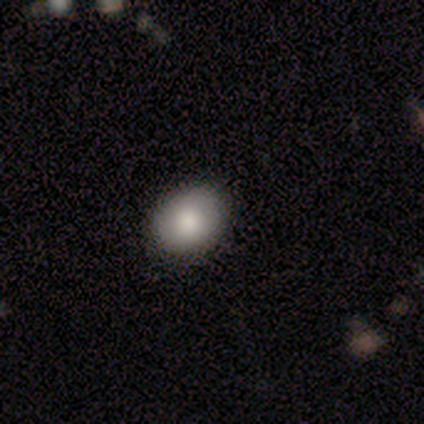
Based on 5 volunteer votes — smooth_or_featured: smooth (p=1.00)
how_rounded: round (p=0.60) [alt: in between p=0.40]
merging: none (p=1.00)